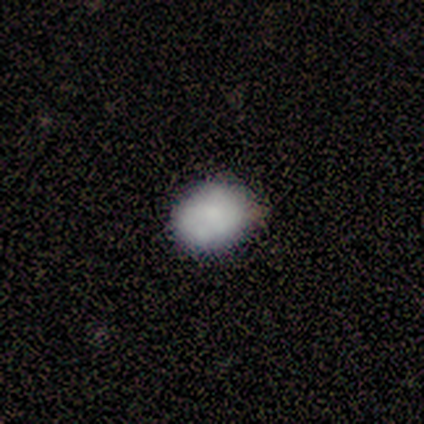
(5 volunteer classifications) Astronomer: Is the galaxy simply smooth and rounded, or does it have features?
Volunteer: smooth — 100%.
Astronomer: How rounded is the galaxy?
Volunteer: round — 60% (runner-up: in between, 40%).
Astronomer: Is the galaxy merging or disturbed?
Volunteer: none — 100%.